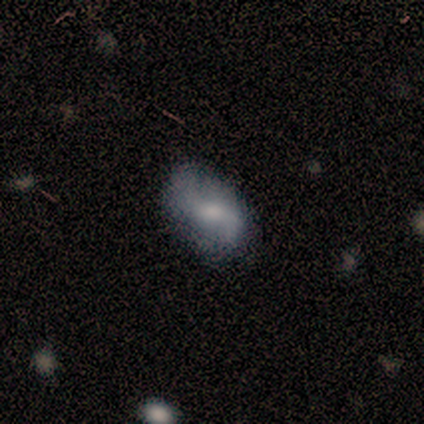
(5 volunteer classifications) Smooth or featured: featured or disk — 100%
Edge-on disk: no — 100%
Bar: no — 60% (weak — 40%)
Spiral arms: yes — 80% (no — 20%)
Spiral winding: loose — 75% (medium — 25%)
Spiral arm count: 2 — 100%
Bulge size: moderate — 60% (large — 20%)
Merging: none — 100%